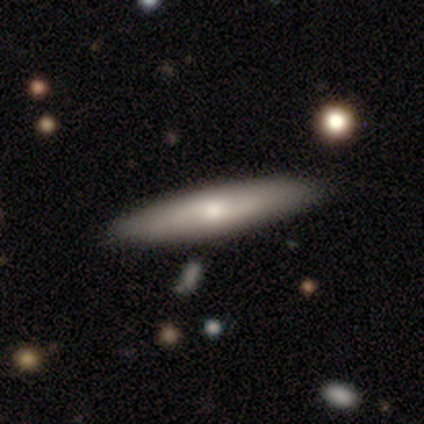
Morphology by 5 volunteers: Smooth or featured? smooth (60%)
How rounded? in between (67%)
Merging? none (100%)